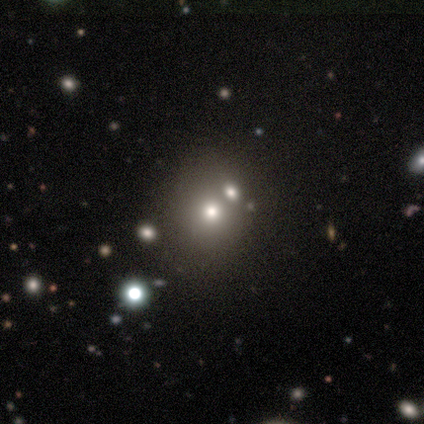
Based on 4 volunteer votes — Smooth or featured? 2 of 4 (50%) said smooth. How rounded? 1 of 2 (50%, tied with in between) said round. Merging? 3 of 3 (100%) said none.